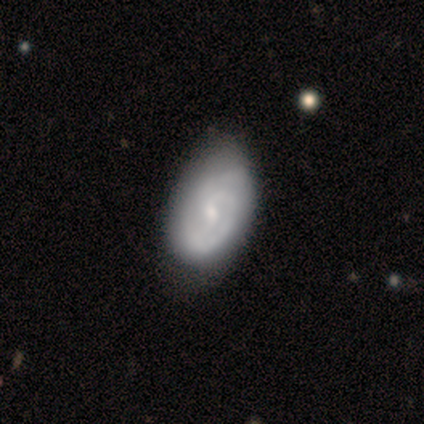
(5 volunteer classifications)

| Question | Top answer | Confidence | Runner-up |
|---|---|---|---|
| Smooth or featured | featured or disk | 100% | — |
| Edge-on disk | no | 100% | — |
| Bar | no | 80% | weak (20%) |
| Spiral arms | yes | 100% | — |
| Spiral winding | tight | 80% | loose (20%) |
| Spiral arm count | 2 | 40% | 1 (20%) |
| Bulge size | small | 60% | moderate (40%) |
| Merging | none | 80% | minor disturbance (20%) |